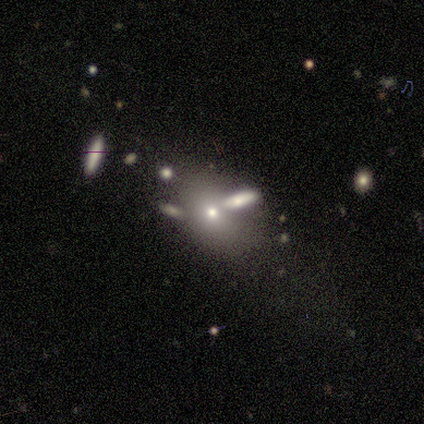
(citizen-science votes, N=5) Overall: smooth (40%, tied with star or artifact). How rounded: in between (100%). Merging: none (100%).